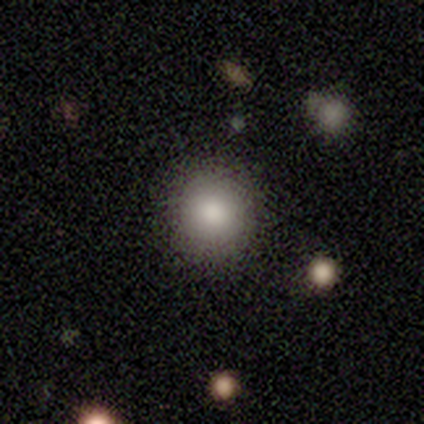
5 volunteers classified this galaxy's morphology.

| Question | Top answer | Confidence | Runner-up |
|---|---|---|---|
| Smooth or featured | smooth | 100% | — |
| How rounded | round | 100% | — |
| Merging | none | 100% | — |